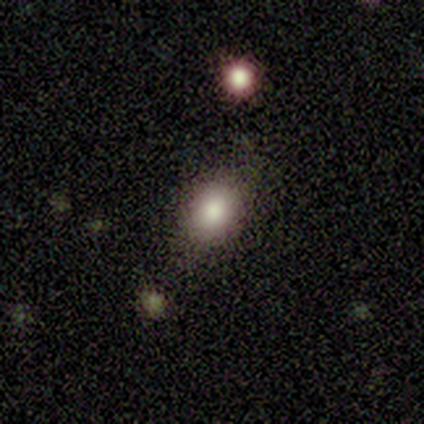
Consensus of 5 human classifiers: Q: Smooth or featured?
A: smooth (60%); runner-up: star or artifact (40%)
Q: How rounded?
A: round (67%); runner-up: in between (33%)
Q: Merging?
A: none (100%)